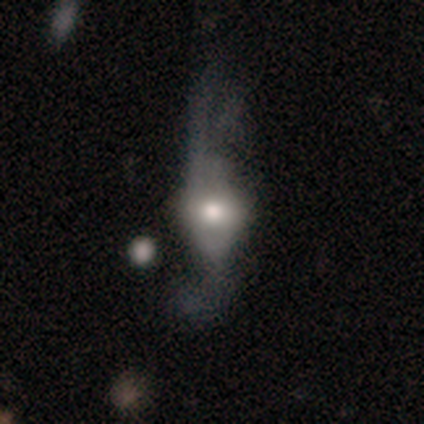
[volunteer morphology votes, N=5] smooth-or-featured: smooth: 60% | featured or disk: 40% | star or artifact: 0%
  how-rounded: in between: 67% | round: 33% | cigar-shaped: 0%
  merging: major disturbance: 80% | none: 20% | minor disturbance: 0% | merger: 0%